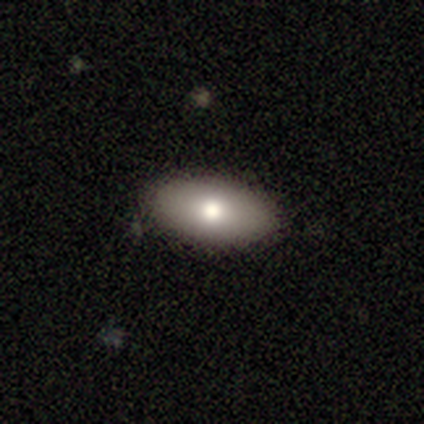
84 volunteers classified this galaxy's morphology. Smooth or featured: smooth — 81% (featured or disk — 17%)
How rounded: in between — 93% (round — 4%)
Merging: none — 88% (minor disturbance — 11%)